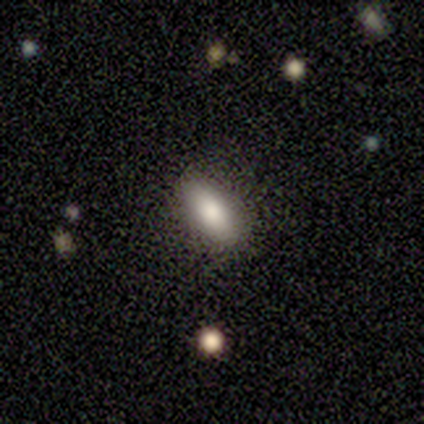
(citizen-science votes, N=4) A smooth galaxy with no disk features (75%) that is in between round and cigar-shaped (100%). Merging: none (75%).